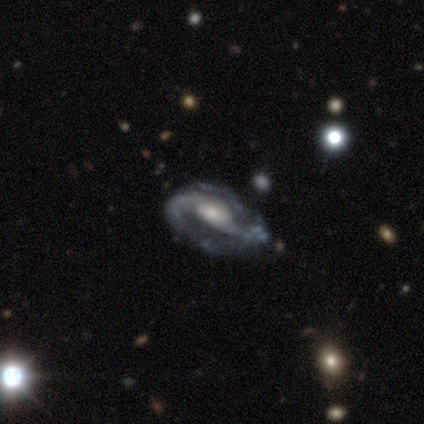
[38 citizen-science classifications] This is clearly a featured or disk galaxy (82%). It is clearly not viewed edge-on (100%). Bar: likely weak (61%). Spiral arm pattern: clearly yes (97%). Spiral arm count: possibly 2 (53%). Spiral winding: possibly loose (47%). Central bulge: likely moderate (61%). Merging: marginally minor disturbance (39%).